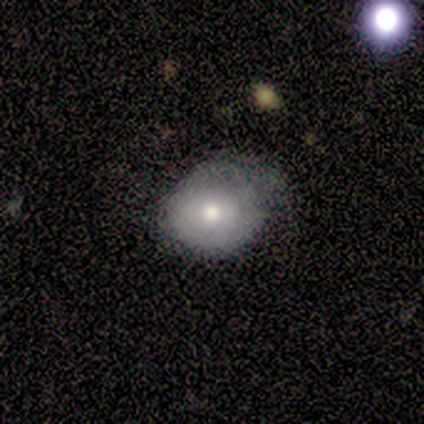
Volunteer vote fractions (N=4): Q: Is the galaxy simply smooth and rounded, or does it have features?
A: featured or disk — 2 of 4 (50%).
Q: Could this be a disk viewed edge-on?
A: no — 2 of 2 (100%).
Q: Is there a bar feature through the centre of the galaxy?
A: weak — 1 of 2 (50%, tied with no).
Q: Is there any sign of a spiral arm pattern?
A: no — 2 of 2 (100%).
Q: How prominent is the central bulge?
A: moderate — 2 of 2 (100%).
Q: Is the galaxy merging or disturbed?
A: minor disturbance — 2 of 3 (67%).